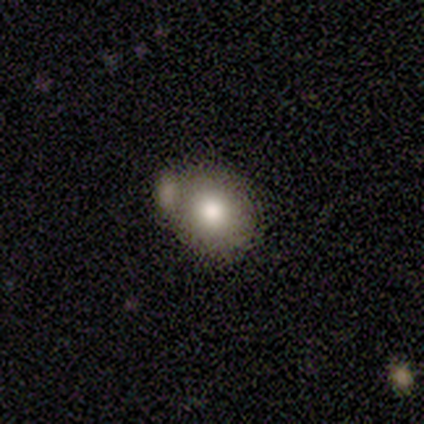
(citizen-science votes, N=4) Smooth or featured? smooth (75%)
How rounded? in between (67%)
Merging? none (75%)